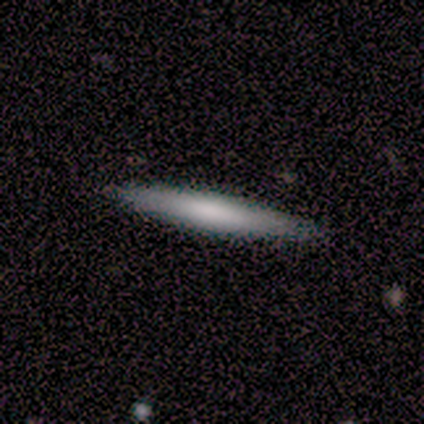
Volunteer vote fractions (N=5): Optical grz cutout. It shows a smooth galaxy with no disk features (100%) that is cigar-shaped (100%). Merging: none (100%).